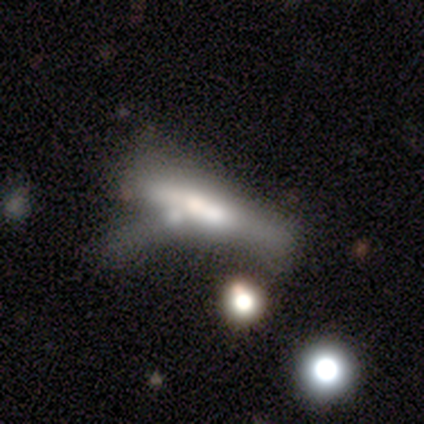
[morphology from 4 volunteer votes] type=featured or disk (75%); edge-on=yes (67%); edge-on bulge=none (100%); merging=merger (50%).